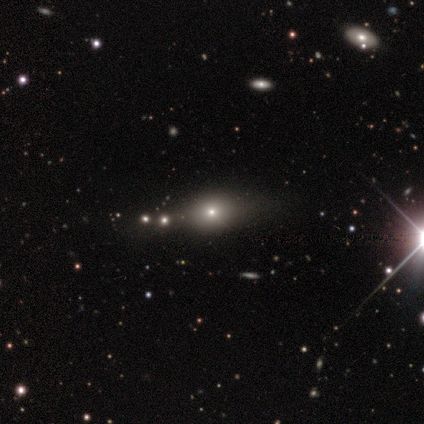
Volunteers were most divided on "how rounded": round: 67%, in between: 33%, cigar-shaped: 0%. More confident: merging — none (100%); smooth or featured — smooth (60%).